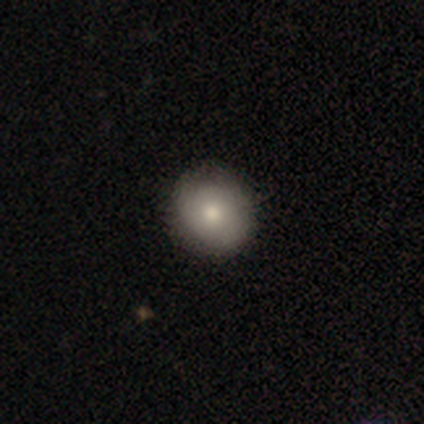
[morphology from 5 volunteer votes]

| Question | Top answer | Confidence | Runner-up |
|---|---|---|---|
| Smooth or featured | smooth | 60% | featured or disk (20%) |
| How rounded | round | 100% | — |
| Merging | none | 100% | — |